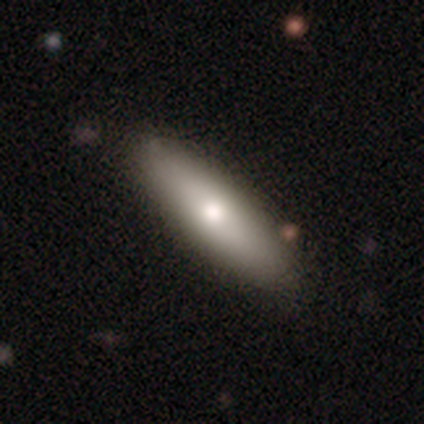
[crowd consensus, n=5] Smooth or featured?
  - featured or disk: 60% *
  - smooth: 20%
  - star or artifact: 20%
Edge-on disk?
  - yes: 100% *
  - no: 0%
Edge-on bulge?
  - rounded: 67% *
  - none: 33%
  - boxy: 0%
Merging?
  - none: 100% *
  - minor disturbance: 0%
  - major disturbance: 0%
  - merger: 0%